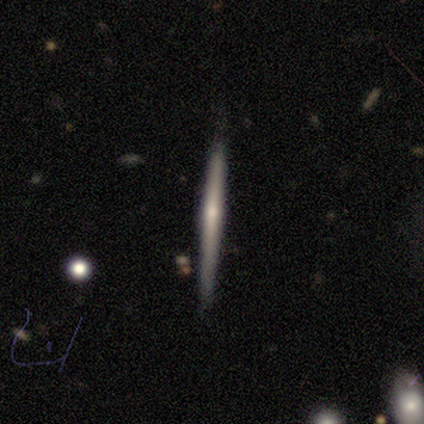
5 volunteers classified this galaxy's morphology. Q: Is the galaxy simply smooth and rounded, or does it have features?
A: featured or disk — 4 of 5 (80%).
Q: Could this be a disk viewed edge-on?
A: yes — 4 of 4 (100%).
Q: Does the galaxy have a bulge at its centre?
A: none — 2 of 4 (50%, tied with rounded).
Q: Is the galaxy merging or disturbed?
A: none — 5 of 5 (100%).